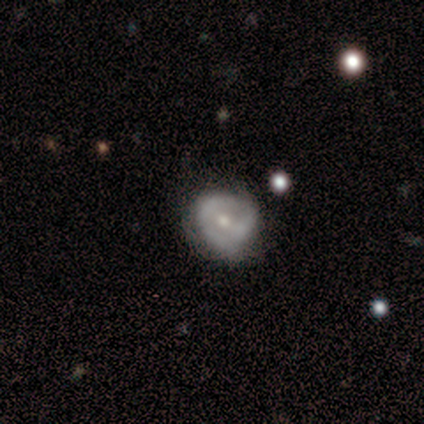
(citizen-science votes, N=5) featured or disk 100%, smooth 0%, star or artifact 0%. Down the decision tree: edge-on disk — no (100%); bar — strong (40%, tied with no); spiral arms — yes (60%); spiral arm count — 2 (67%); spiral winding — medium (67%); bulge size — moderate (80%); merging — minor disturbance (60%).